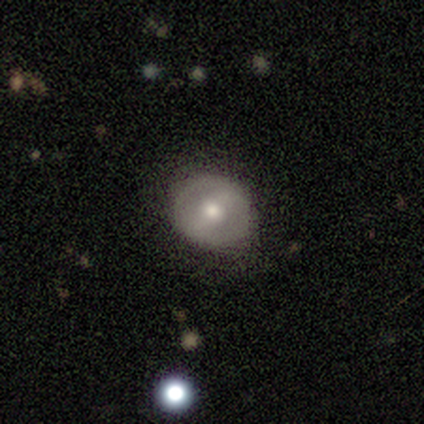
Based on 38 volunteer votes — featured or disk 55%, smooth 39%, star or artifact 5%. Down the decision tree: edge-on disk — no (90%); bar — strong (42%, tied with weak); spiral arms — no (74%); bulge size — moderate (84%); merging — none (92%).